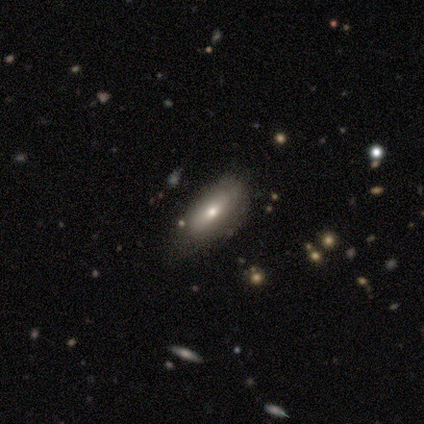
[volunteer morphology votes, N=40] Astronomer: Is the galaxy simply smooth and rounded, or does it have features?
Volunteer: smooth — 52% (runner-up: featured or disk, 35%).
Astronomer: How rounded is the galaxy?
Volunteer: in between — 86%.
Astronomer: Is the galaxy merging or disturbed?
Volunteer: none — 69%.